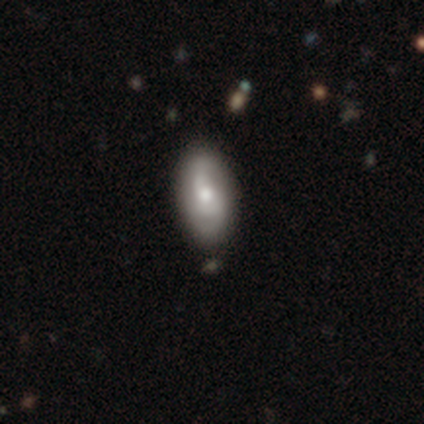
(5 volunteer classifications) Smooth or featured?
  - featured or disk: 60% *
  - smooth: 20%
  - star or artifact: 20%
Edge-on disk?
  - no: 100% *
  - yes: 0%
Bar?
  - no: 67% *
  - weak: 33%
  - strong: 0%
Spiral arms?
  - yes: 67% *
  - no: 33%
Spiral winding?
  - tight: 50% * (tied)
  - loose: 50% * (tied)
  - medium: 0%
Spiral arm count?
  - 2: 50% * (tied)
  - 3: 50% * (tied)
  - 1: 0%
  - 4: 0%
  - more than 4: 0%
  - can't tell: 0%
Bulge size?
  - large: 67% *
  - moderate: 33%
  - dominant: 0%
  - small: 0%
  - none: 0%
Merging?
  - none: 75% *
  - minor disturbance: 25%
  - major disturbance: 0%
  - merger: 0%